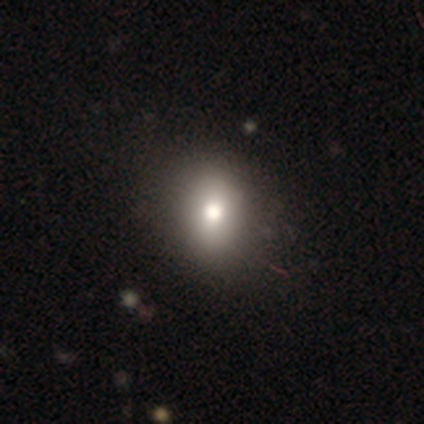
A smooth galaxy with no disk features (80%) that is round (50%, tied with in between).

Vote fractions:
- Smooth or featured? smooth: 80% / featured or disk: 20% / star or artifact: 0%
- How rounded? round: 50% (tied) / in between: 50% (tied) / cigar-shaped: 0%
- Merging? none: 80% / minor disturbance: 20% / major disturbance: 0% / merger: 0%